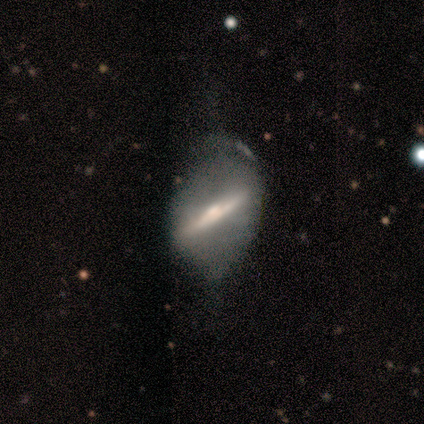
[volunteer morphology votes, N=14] A featured or disk galaxy (79%) with a strong bar (86%), no spiral arms (100%) and a moderate central bulge (43%, tied with small).

Vote fractions:
- Smooth or featured? featured or disk: 79% / smooth: 21% / star or artifact: 0%
- Edge-on disk? no: 64% / yes: 36%
- Bar? strong: 86% / no: 14% / weak: 0%
- Spiral arms? no: 100% / yes: 0%
- Bulge size? moderate: 43% (tied) / small: 43% (tied) / large: 14% / dominant: 0% / none: 0%
- Merging? major disturbance: 43% / none: 29% / minor disturbance: 29% / merger: 0%